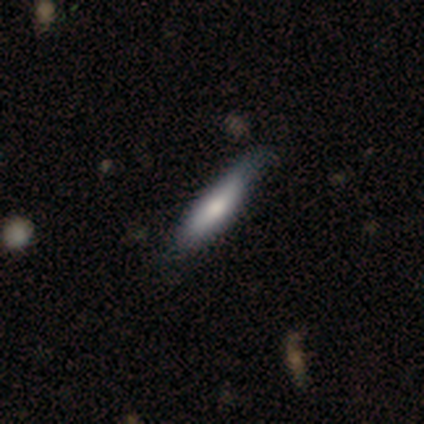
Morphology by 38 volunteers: Smooth or featured? smooth (61%)
How rounded? cigar-shaped (83%)
Merging? none (58%)